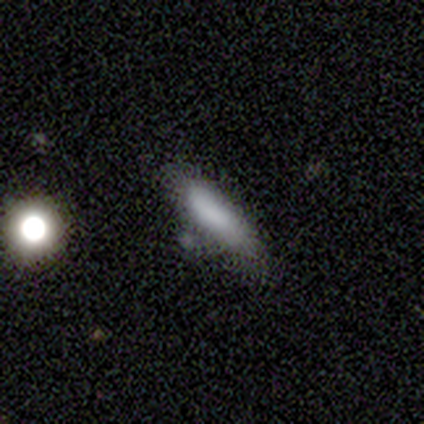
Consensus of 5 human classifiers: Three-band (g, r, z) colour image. It shows a smooth galaxy with no disk features (100%) that is cigar-shaped (80%). Merging: none (100%).